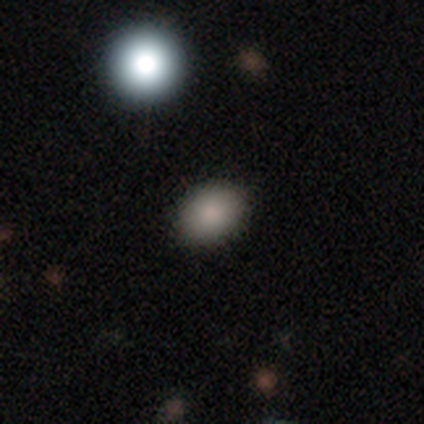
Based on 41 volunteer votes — smooth-or-featured: smooth: 78% | featured or disk: 12% | star or artifact: 10%
  how-rounded: in between: 75% | round: 25% | cigar-shaped: 0%
  merging: none: 86% | minor disturbance: 5% | major disturbance: 5% | merger: 3%